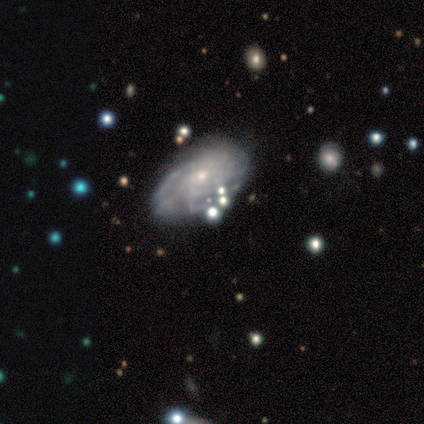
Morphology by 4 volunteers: A featured or disk galaxy (100%) with no bar (100%), medium (50%) spiral arms (100%) and a small central bulge (100%). Merging: none (75%).